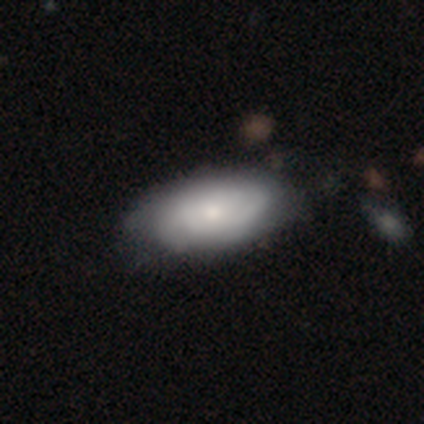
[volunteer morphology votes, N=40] Q: Smooth or featured?
A: smooth (52%); runner-up: featured or disk (40%)
Q: How rounded?
A: in between (90%); runner-up: round (5%)
Q: Merging?
A: none (49%); runner-up: minor disturbance (16%)